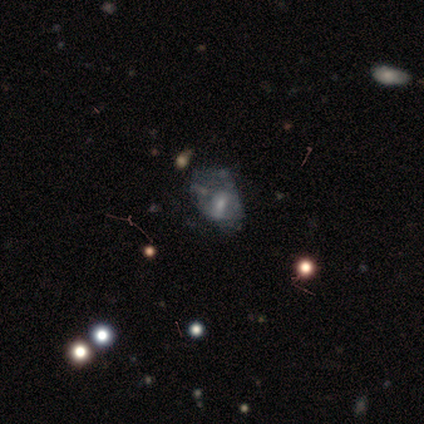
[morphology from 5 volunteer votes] Volunteers were most divided on "bulge size": small: 50%, large: 25%, moderate: 25%, dominant: 0%, none: 0%. More confident: edge-on disk — no (100%); bar — weak (100%); spiral arms — no (100%); smooth or featured — featured or disk (80%); merging — none (50%).